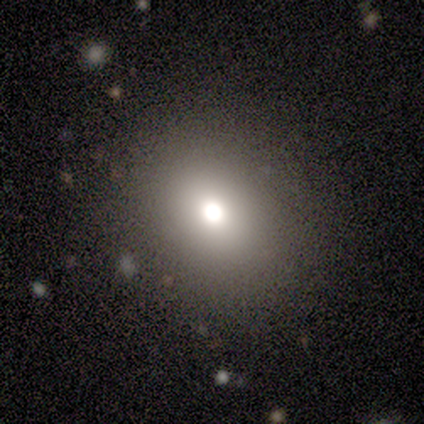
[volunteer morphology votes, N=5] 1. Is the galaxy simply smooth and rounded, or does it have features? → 60% smooth, 20% featured or disk, 20% star or artifact.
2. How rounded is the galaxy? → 67% in between, 33% round, 0% cigar-shaped.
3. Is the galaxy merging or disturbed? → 100% none, 0% minor disturbance, 0% major disturbance, 0% merger.